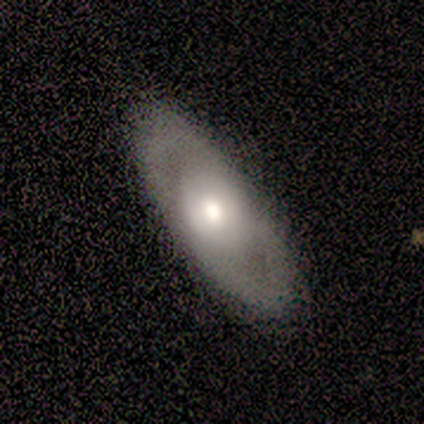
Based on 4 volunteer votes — This is possibly a star or artifact rather than a galaxy (50%).